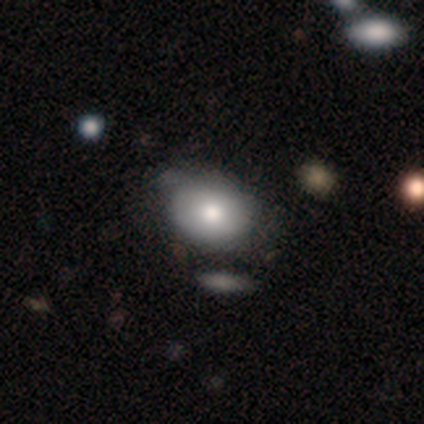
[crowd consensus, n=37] Smooth or featured? smooth (84%)
How rounded? in between (65%)
Merging? none (29%, tied with minor disturbance)